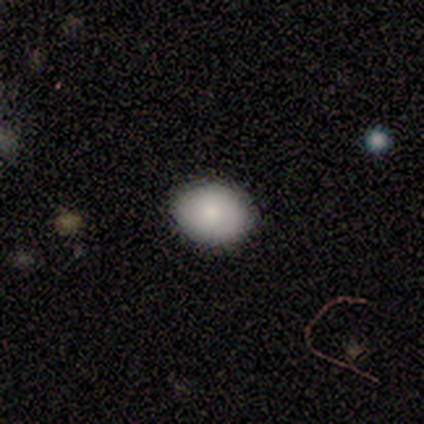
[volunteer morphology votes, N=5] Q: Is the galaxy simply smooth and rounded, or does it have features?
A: smooth — 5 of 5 (100%).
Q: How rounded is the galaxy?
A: in between — 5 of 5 (100%).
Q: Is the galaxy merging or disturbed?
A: none — 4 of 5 (80%).